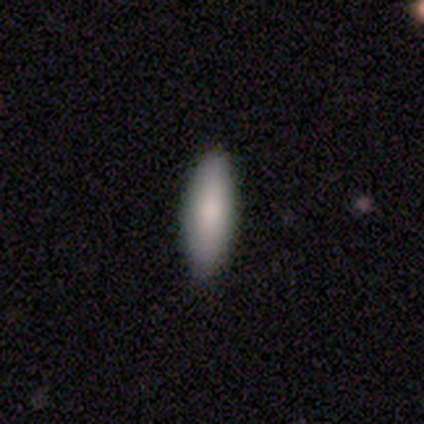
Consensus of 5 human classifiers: A smooth galaxy with no disk features (60%) that is cigar-shaped (67%). Merging: none (80%).